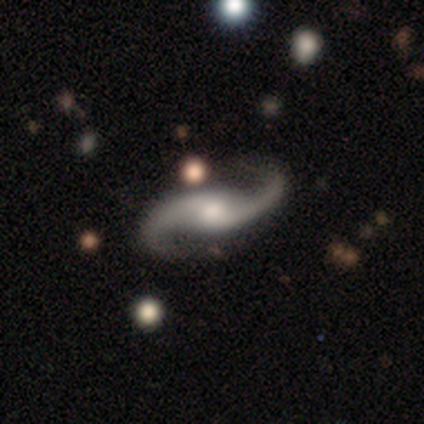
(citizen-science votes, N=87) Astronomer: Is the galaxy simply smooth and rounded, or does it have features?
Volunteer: featured or disk — 98%.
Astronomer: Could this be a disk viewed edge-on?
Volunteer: no — 98%.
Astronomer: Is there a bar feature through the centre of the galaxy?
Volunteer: no — 51% (runner-up: weak, 36%).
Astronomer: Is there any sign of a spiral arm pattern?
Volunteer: yes — 99%.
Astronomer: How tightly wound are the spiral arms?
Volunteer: loose — 83%.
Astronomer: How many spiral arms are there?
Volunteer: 2 — 99%.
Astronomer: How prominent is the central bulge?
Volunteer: moderate — 57%.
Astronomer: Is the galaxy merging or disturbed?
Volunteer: none — 84%.